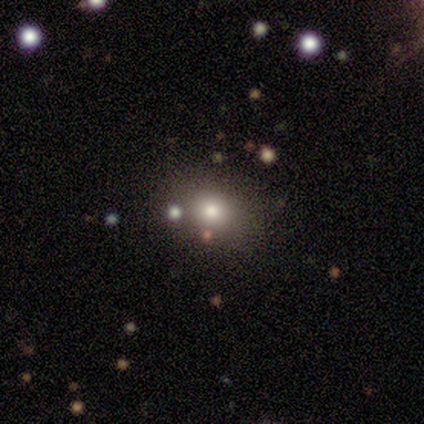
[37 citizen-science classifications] This is likely a smooth galaxy (76%). How rounded: possibly round (54%). Merging: marginally none (36%).